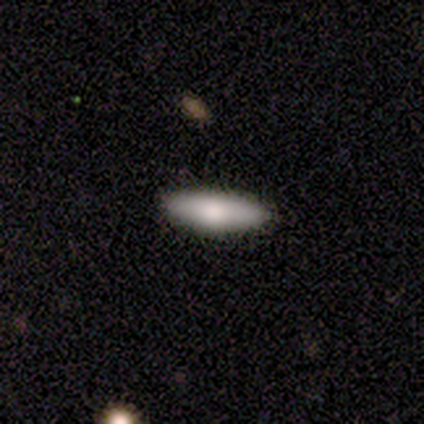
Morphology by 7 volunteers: Smooth or featured: smooth — 100%
How rounded: cigar-shaped — 57% (in between — 43%)
Merging: none — 100%